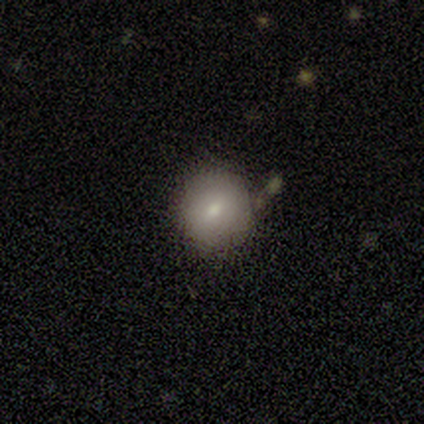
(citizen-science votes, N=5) This appears to be a smooth galaxy with no disk features (100%) that is round (80%). Merging: none (60%).